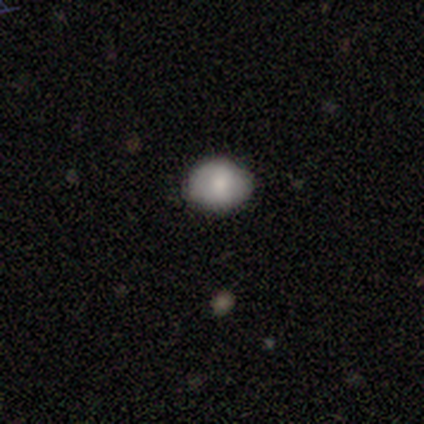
smooth_or_featured: smooth (p=0.80) [alt: featured or disk p=0.20]
how_rounded: round (p=0.75) [alt: in between p=0.25]
merging: none (p=0.80) [alt: minor disturbance p=0.20]